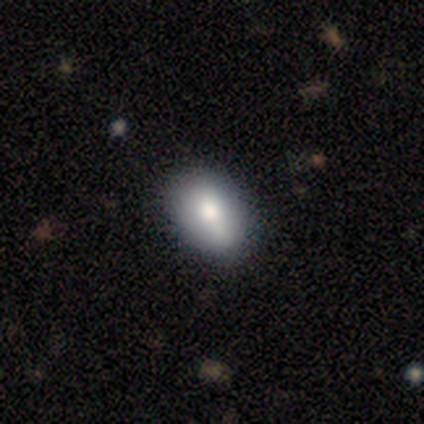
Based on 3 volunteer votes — A smooth galaxy with no disk features (100%) that is in between round and cigar-shaped (100%).

Vote fractions:
- Smooth or featured? smooth: 100% / featured or disk: 0% / star or artifact: 0%
- How rounded? in between: 100% / round: 0% / cigar-shaped: 0%
- Merging? none: 67% / minor disturbance: 33% / major disturbance: 0% / merger: 0%